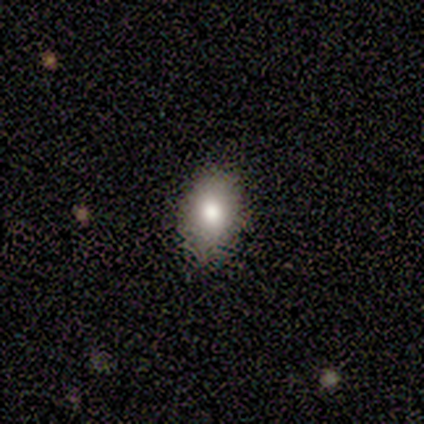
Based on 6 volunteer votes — Smooth or featured?
  - smooth: 67% *
  - featured or disk: 33%
  - star or artifact: 0%
How rounded?
  - in between: 75% *
  - round: 25%
  - cigar-shaped: 0%
Merging?
  - none: 83% *
  - minor disturbance: 17%
  - major disturbance: 0%
  - merger: 0%